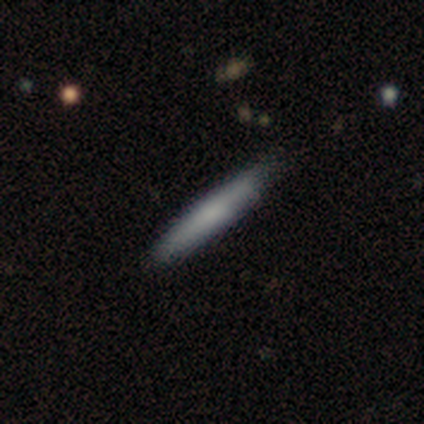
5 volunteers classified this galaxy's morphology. smooth-or-featured: smooth: 80% | featured or disk: 20% | star or artifact: 0%
  how-rounded: cigar-shaped: 100% | round: 0% | in between: 0%
  merging: none: 60% | minor disturbance: 40% | major disturbance: 0% | merger: 0%